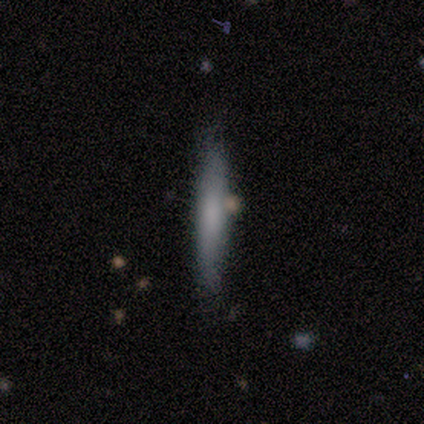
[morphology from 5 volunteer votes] smooth_or_featured: smooth (p=0.40) [tied with: featured or disk p=0.40]
how_rounded: cigar-shaped (p=1.00)
merging: none (p=0.75) [alt: minor disturbance p=0.25]